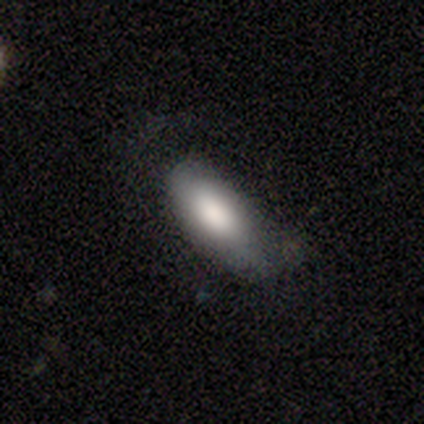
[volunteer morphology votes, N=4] This appears to be a smooth galaxy with no disk features (100%) that is cigar-shaped (75%). Merging: none (75%).